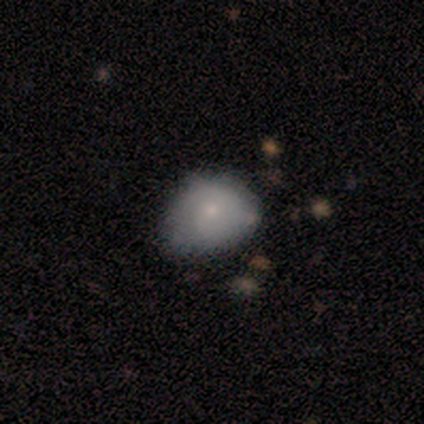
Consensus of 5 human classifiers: This is marginally a smooth galaxy (40%, tied with featured or disk). How rounded: possibly round (50%, tied with in between). Merging: likely minor disturbance (75%).